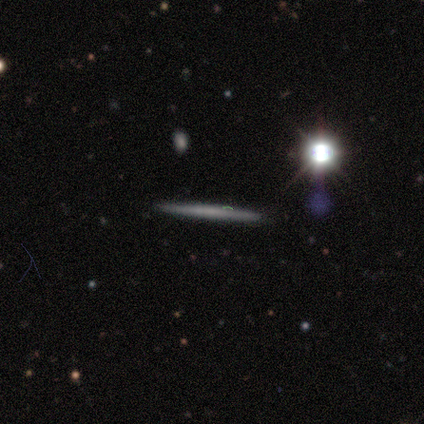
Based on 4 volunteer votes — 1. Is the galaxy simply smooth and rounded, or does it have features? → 75% smooth, 25% star or artifact, 0% featured or disk.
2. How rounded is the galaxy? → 100% cigar-shaped, 0% round, 0% in between.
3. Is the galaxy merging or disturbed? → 100% none, 0% minor disturbance, 0% major disturbance, 0% merger.